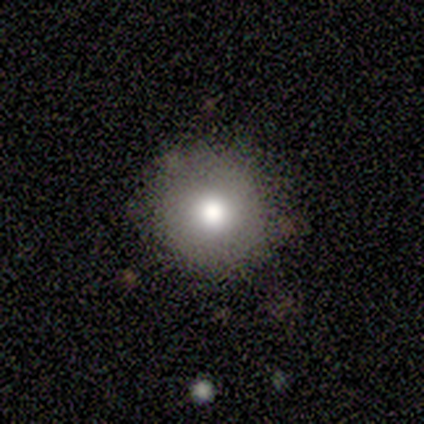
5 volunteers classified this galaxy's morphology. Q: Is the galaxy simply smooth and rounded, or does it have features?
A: smooth — 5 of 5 (100%).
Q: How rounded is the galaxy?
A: round — 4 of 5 (80%).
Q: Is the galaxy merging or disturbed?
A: none — 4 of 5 (80%).